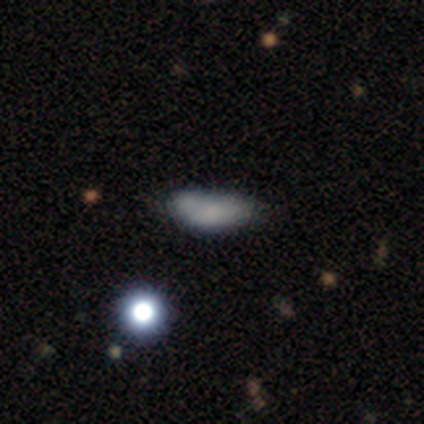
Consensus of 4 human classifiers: Volunteers were most divided on "how rounded" (2-way tie): in between: 50%, cigar-shaped: 50%, round: 0%. More confident: smooth or featured — smooth (100%); merging — none (75%).